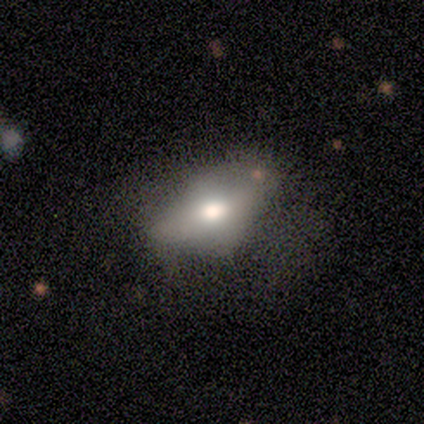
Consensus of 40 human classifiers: Q: Smooth or featured?
A: smooth (62%); runner-up: featured or disk (30%)
Q: How rounded?
A: in between (84%); runner-up: cigar-shaped (12%)
Q: Merging?
A: none (49%); runner-up: minor disturbance (14%)